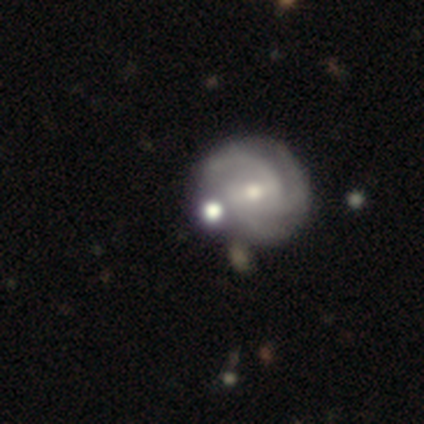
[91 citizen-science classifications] Overall: featured or disk (78%). Edge-on disk: no (96%). Bar: no (50%; weak 41%). Spiral arms: yes (96%). Spiral arm count: 3 (68%). Spiral winding: tight (54%; medium 38%). Bulge size: small (49%; moderate 46%). Merging: none (54%; merger 22%).